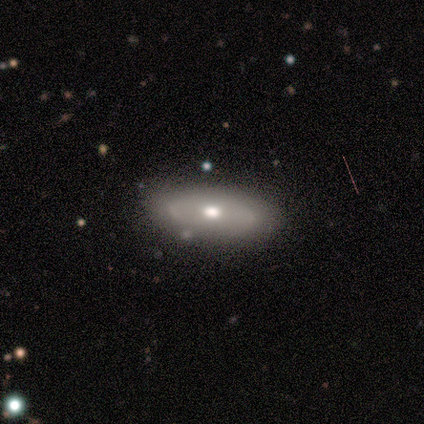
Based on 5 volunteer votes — This is likely a smooth galaxy (60%). How rounded: likely in between (67%). Merging: clearly none (80%).